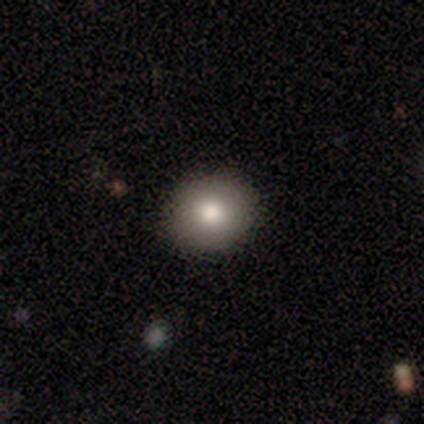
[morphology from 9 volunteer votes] This appears to be a smooth galaxy with no disk features (78%) that is round (100%). Merging: none (78%).